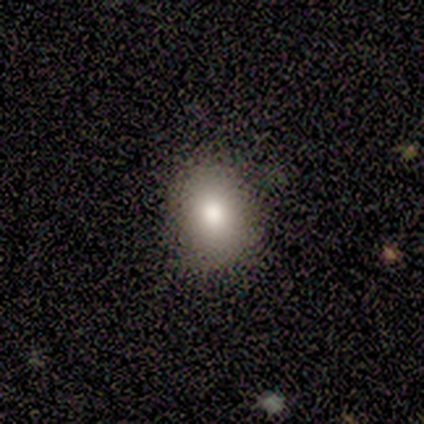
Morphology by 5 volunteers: smooth-or-featured: smooth: 100% | featured or disk: 0% | star or artifact: 0%
  how-rounded: in between: 100% | round: 0% | cigar-shaped: 0%
  merging: none: 100% | minor disturbance: 0% | major disturbance: 0% | merger: 0%